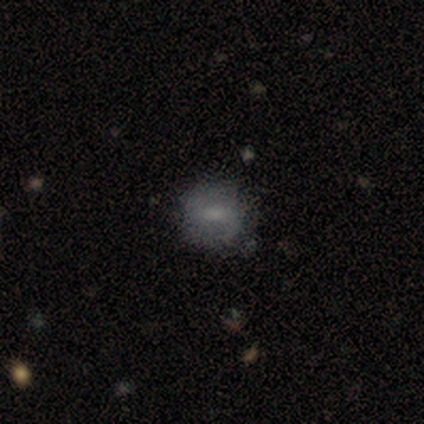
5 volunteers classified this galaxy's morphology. This appears to be a featured or disk galaxy (80%) with a strong bar (50%), 2 (100%) medium (50%) spiral arms (100%) and a moderate central bulge (50%). Merging: minor disturbance (60%).